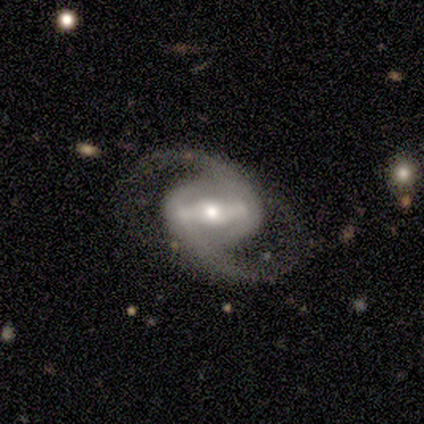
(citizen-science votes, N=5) This is clearly a featured or disk galaxy (100%). It is clearly not viewed edge-on (100%). Bar: likely strong (60%). Spiral arm pattern: clearly yes (100%). Spiral arm count: clearly 2 (100%). Spiral winding: clearly medium (80%). Central bulge: likely moderate (60%). Merging: clearly none (100%).